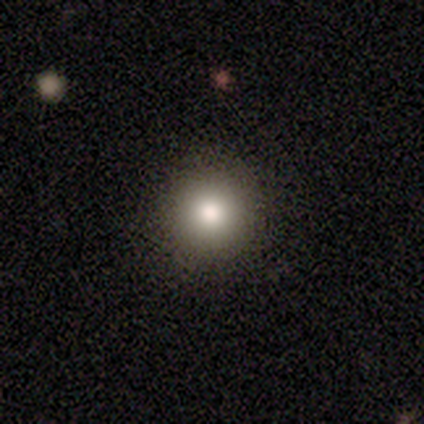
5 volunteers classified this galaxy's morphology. This is clearly a smooth galaxy (100%). How rounded: clearly round (100%). Merging: clearly none (100%).